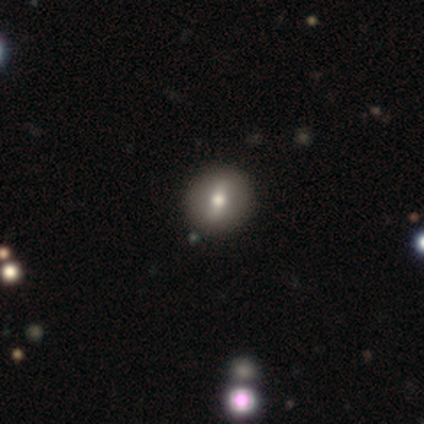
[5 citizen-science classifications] This is clearly a smooth galaxy (80%). How rounded: clearly round (100%). Merging: likely none (75%).